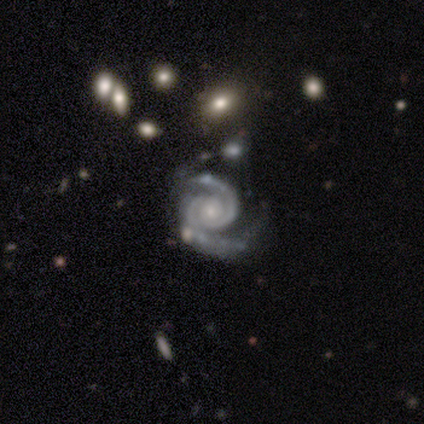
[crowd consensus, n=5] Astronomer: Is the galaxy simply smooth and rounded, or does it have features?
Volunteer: featured or disk — 100%.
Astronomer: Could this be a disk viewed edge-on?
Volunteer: no — 100%.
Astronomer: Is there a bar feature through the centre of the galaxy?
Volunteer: no — 60% (runner-up: weak, 40%).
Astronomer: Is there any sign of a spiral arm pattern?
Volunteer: yes — 100%.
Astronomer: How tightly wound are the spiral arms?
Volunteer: tight — 60% (runner-up: medium, 40%).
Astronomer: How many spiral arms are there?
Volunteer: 2 — 100%.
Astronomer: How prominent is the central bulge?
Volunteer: small — 60% (runner-up: moderate, 40%).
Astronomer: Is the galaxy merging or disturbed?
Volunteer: none — 40%, tied with minor disturbance at 40%.